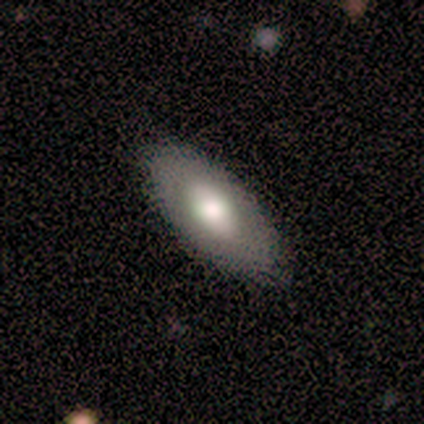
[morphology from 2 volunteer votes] featured or disk 50% (tied), star or artifact 50% (tied), smooth 0%. Down the decision tree: edge-on disk — no (100%); bar — no (100%); spiral arms — no (100%); bulge size — moderate (100%); merging — none (100%).